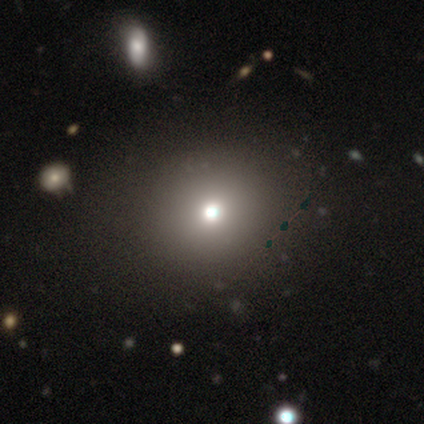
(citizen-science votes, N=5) Q: Smooth or featured?
A: smooth (60%); runner-up: star or artifact (40%)
Q: How rounded?
A: round (100%)
Q: Merging?
A: minor disturbance (67%); runner-up: none (33%)